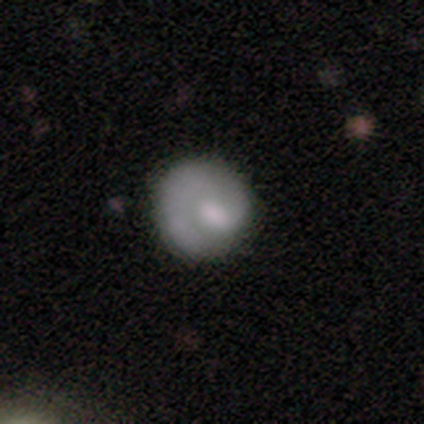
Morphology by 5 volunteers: Smooth or featured? featured or disk (60%)
Edge-on disk? no (67%)
Bar? no (100%)
Spiral arms? yes (100%)
Spiral winding? tight (100%)
Spiral arm count? 1 (100%)
Bulge size? large (50%, tied with moderate)
Merging? none (60%)